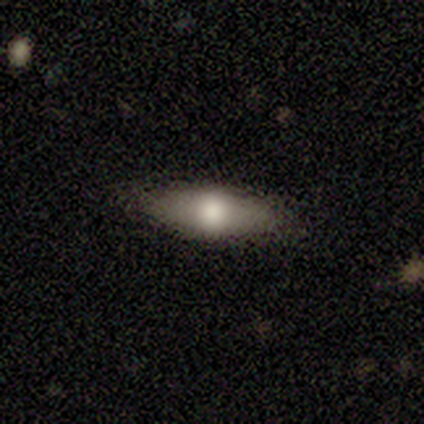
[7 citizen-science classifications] This appears to be a smooth galaxy with no disk features (57%) that is in between round and cigar-shaped (100%). Merging: none (83%).